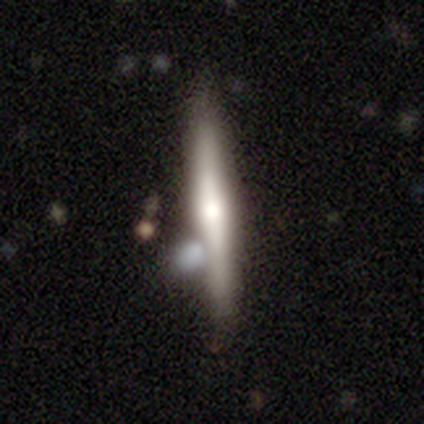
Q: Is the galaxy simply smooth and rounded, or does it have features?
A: smooth — 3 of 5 (60%).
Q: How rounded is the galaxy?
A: cigar-shaped — 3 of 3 (100%).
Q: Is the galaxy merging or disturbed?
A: none — 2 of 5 (40%, tied with minor disturbance).